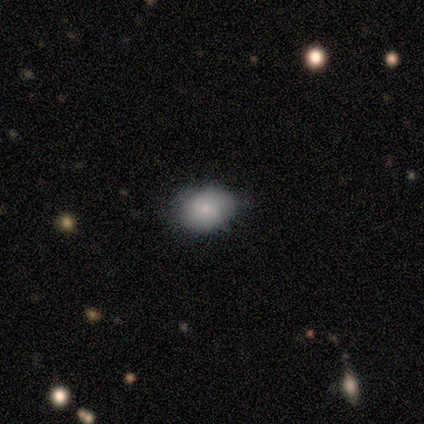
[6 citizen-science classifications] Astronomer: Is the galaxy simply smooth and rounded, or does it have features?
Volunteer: smooth — 83%.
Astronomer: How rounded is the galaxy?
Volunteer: in between — 60% (runner-up: round, 40%).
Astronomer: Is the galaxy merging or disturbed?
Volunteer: none — 100%.